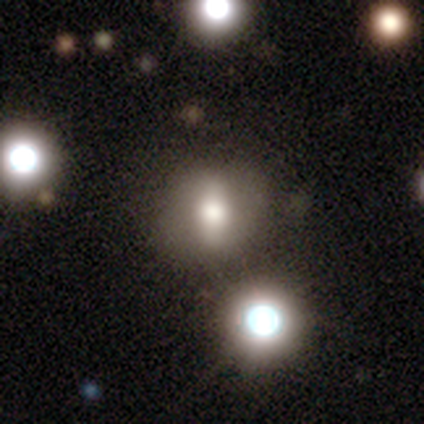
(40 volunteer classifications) Morphology: type=featured or disk (45%); edge-on=no (83%); bar=strong (60%); spiral arms=no (67%); bulge=large (60%); merging=none (65%).